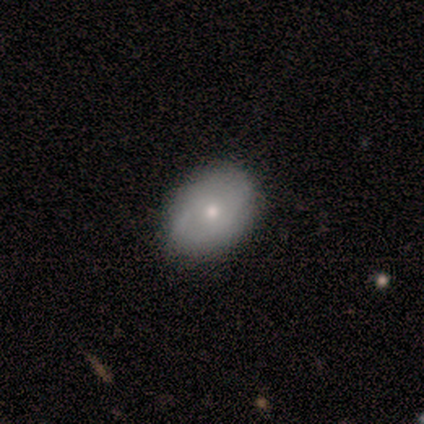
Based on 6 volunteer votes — A smooth galaxy with no disk features (67%) that is round (50%, tied with in between).

Vote fractions:
- Smooth or featured? smooth: 67% / featured or disk: 33% / star or artifact: 0%
- How rounded? round: 50% (tied) / in between: 50% (tied) / cigar-shaped: 0%
- Merging? none: 100% / minor disturbance: 0% / major disturbance: 0% / merger: 0%